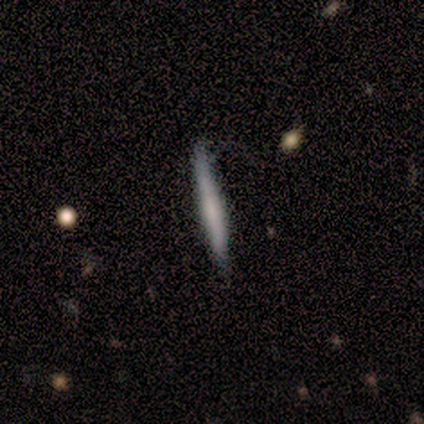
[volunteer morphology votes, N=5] Overall: featured or disk (60%; smooth 40%). Edge-on disk: yes (100%). Edge-on bulge: none (67%; boxy 33%). Merging: none (100%).